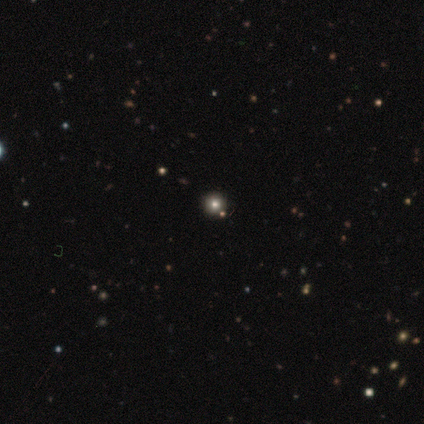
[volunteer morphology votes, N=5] Q: Smooth or featured?
A: smooth (60%); runner-up: featured or disk (20%)
Q: How rounded?
A: round (100%)
Q: Merging?
A: none (100%)